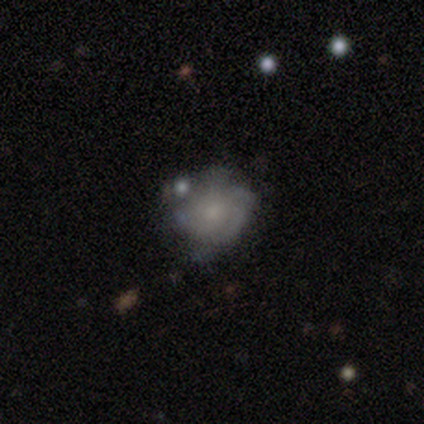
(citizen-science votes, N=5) Morphology: type=smooth (40%, tied with featured or disk); roundness=round (50%, tied with in between); merging=none (50%).